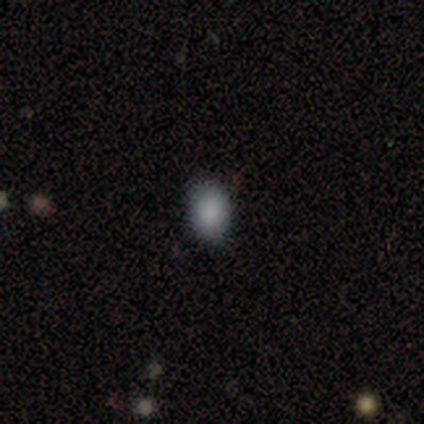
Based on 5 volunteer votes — Smooth or featured: smooth — 80% (featured or disk — 20%)
How rounded: in between — 75% (cigar-shaped — 25%)
Merging: none — 60% (minor disturbance — 20%)